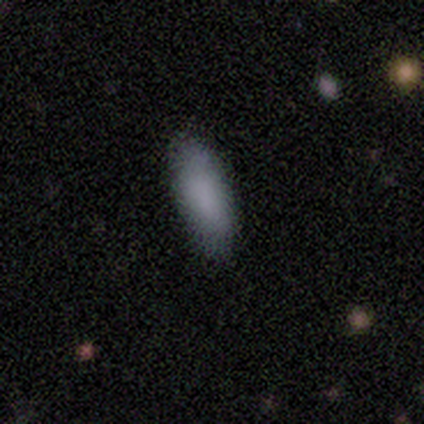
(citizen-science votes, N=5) Smooth or featured: smooth — 100%
How rounded: in between — 80% (cigar-shaped — 20%)
Merging: none — 100%